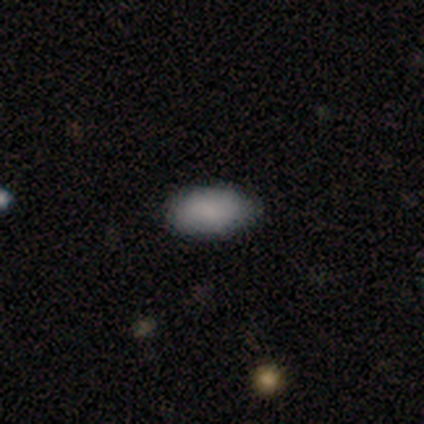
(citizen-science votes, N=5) smooth_or_featured: smooth (p=1.00)
how_rounded: in between (p=1.00)
merging: none (p=0.80) [alt: minor disturbance p=0.20]